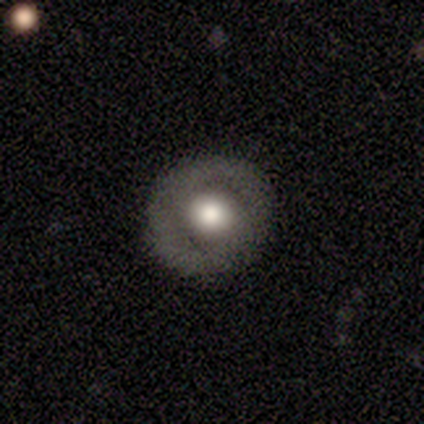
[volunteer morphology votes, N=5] Smooth or featured? smooth (60%)
How rounded? round (100%)
Merging? none (80%)